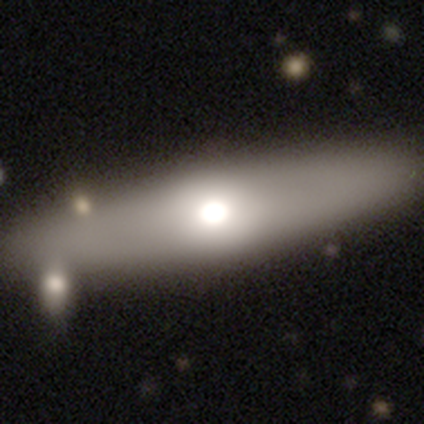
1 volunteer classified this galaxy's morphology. Smooth or featured?
  - smooth: 100% *
  - featured or disk: 0%
  - star or artifact: 0%
How rounded?
  - round: 100% *
  - in between: 0%
  - cigar-shaped: 0%
Merging?
  - major disturbance: 100% *
  - none: 0%
  - minor disturbance: 0%
  - merger: 0%